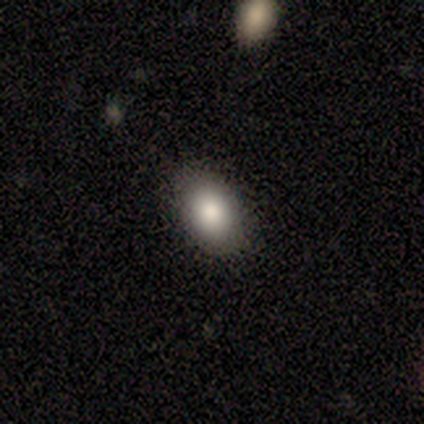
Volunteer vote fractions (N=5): Smooth or featured: smooth — 100%
How rounded: in between — 100%
Merging: none — 100%